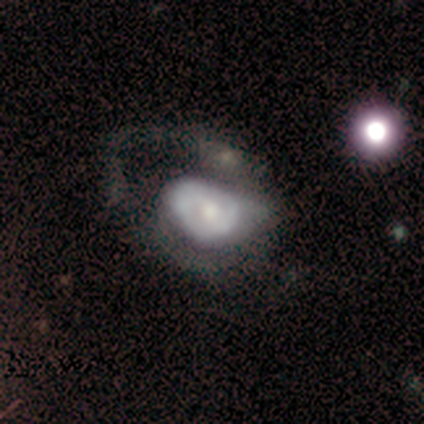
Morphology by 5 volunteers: Smooth or featured? featured or disk (80%)
Edge-on disk? no (100%)
Bar? no (100%)
Spiral arms? yes (50%, tied with no)
Spiral winding? tight (50%, tied with medium)
Spiral arm count? 1 (50%, tied with can't tell)
Bulge size? small (50%)
Merging? minor disturbance (60%)